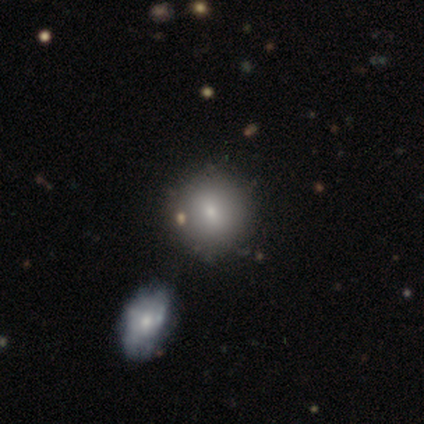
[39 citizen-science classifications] Morphology: type=smooth (79%); roundness=round (87%); merging=none (51%).